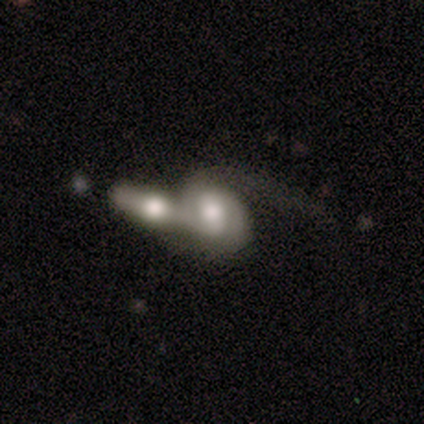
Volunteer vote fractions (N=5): A featured or disk galaxy (60%) with a weak bar (100%), 1 (50%, tied with 2) loose (100%) spiral arms (100%) and a large central bulge (50%, tied with moderate). Merging: merger (60%).